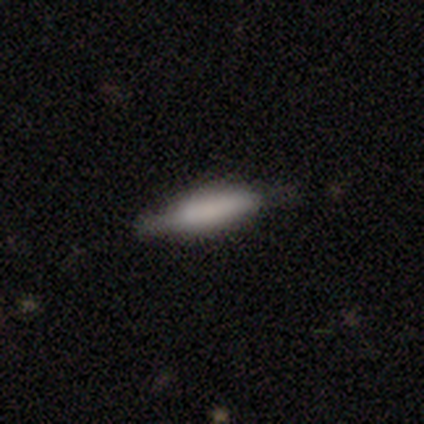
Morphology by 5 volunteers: Smooth or featured? smooth (80%)
How rounded? cigar-shaped (100%)
Merging? none (100%)